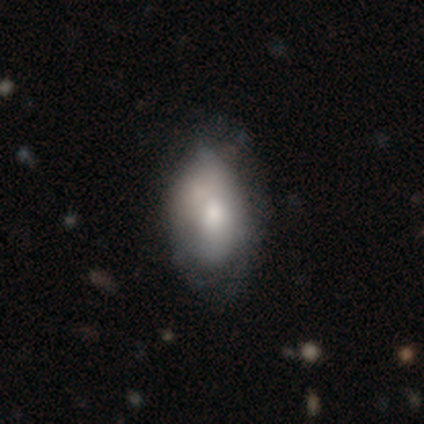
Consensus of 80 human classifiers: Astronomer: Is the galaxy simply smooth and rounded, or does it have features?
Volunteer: smooth — 66%.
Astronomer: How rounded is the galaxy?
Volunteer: in between — 87%.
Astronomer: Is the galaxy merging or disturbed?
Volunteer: none — 30% (runner-up: minor disturbance, 16%).